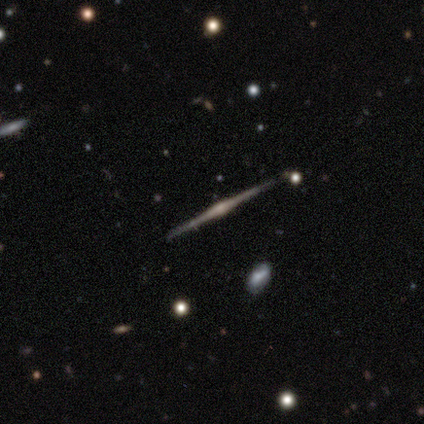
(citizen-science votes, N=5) Smooth or featured? featured or disk (100%)
Edge-on disk? yes (100%)
Edge-on bulge? rounded (100%)
Merging? none (100%)